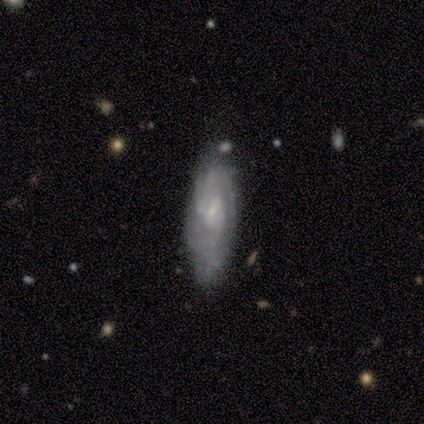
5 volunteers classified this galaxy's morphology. Volunteers were most divided on "spiral winding" (2-way tie): medium: 40%, loose: 40%, tight: 20%. More confident: smooth or featured — featured or disk (100%); edge-on disk — no (100%); spiral arms — yes (100%); bulge size — small (100%); merging — none (100%); bar — weak (60%); spiral arm count — can't tell (60%).